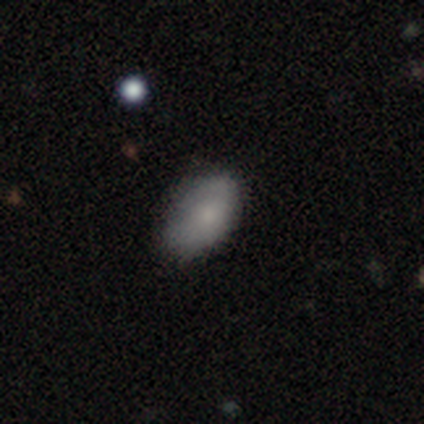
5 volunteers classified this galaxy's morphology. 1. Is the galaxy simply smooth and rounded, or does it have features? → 60% smooth, 40% featured or disk, 0% star or artifact.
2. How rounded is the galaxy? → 100% in between, 0% round, 0% cigar-shaped.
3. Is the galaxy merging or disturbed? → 60% none, 20% minor disturbance, 20% major disturbance, 0% merger.